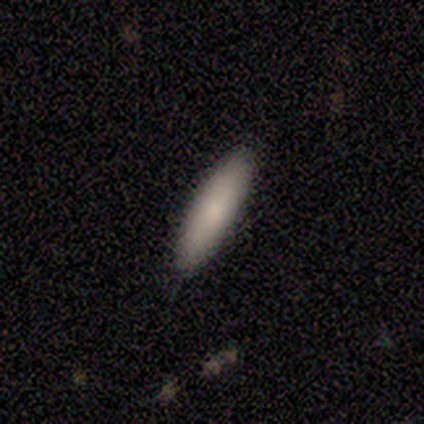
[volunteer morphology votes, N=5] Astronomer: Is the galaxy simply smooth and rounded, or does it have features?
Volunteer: smooth — 80%.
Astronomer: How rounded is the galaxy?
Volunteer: in between — 50%, tied with cigar-shaped at 50%.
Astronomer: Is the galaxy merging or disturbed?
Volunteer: none — 100%.